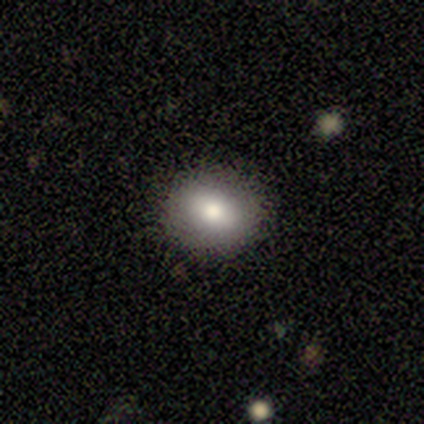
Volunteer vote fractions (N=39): A smooth galaxy with no disk features (77%) that is round (53%).

Vote fractions:
- Smooth or featured? smooth: 77% / featured or disk: 15% / star or artifact: 8%
- How rounded? round: 53% / in between: 47% / cigar-shaped: 0%
- Merging? none: 81% / minor disturbance: 19% / major disturbance: 0% / merger: 0%